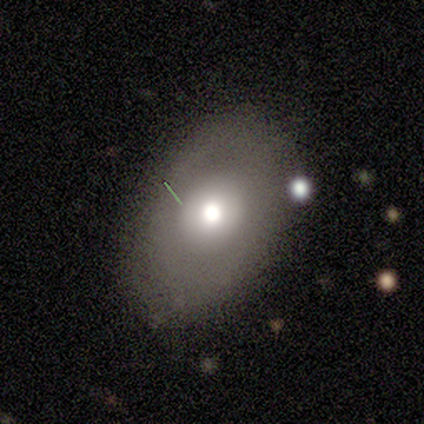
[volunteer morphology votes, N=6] smooth_or_featured: smooth (p=0.50) [alt: featured or disk p=0.33]
how_rounded: in between (p=1.00)
merging: none (p=0.80) [alt: minor disturbance p=0.20]